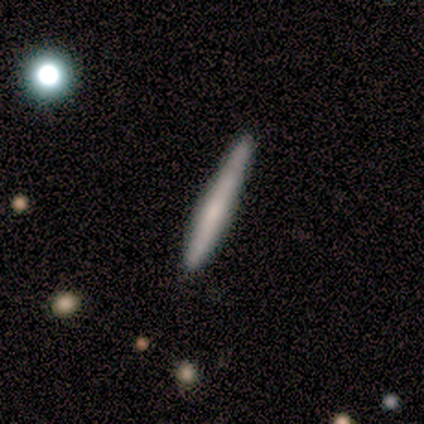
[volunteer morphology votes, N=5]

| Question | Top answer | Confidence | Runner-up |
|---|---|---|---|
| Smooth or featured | smooth | 80% | featured or disk (20%) |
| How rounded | cigar-shaped | 75% | in between (25%) |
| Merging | none | 100% | — |